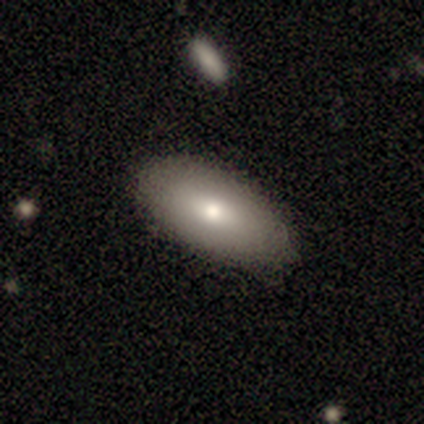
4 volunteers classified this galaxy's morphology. This is clearly a smooth galaxy (100%). How rounded: clearly in between (100%). Merging: clearly none (100%).